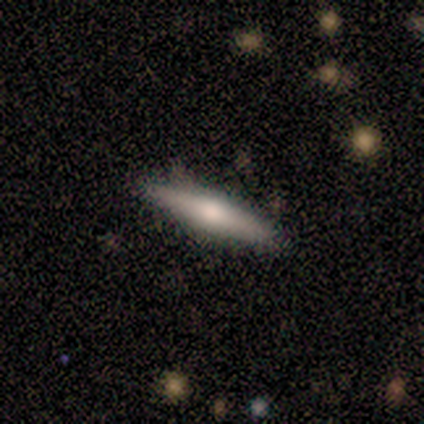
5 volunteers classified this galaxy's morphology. Overall: featured or disk (60%; smooth 40%). Edge-on disk: yes (100%). Edge-on bulge: rounded (100%). Merging: none (100%).